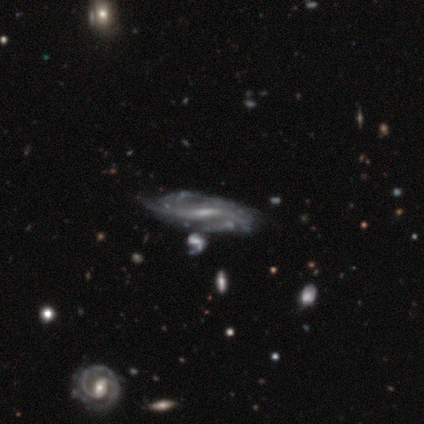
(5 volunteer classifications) Overall: featured or disk (80%). Edge-on disk: no (75%). Bar: weak (67%; strong 33%). Spiral arms: yes (100%). Spiral arm count: can't tell (67%; 2 33%). Spiral winding: loose (67%; tight 33%). Bulge size: small (67%; moderate 33%). Merging: none (60%; minor disturbance 20%).